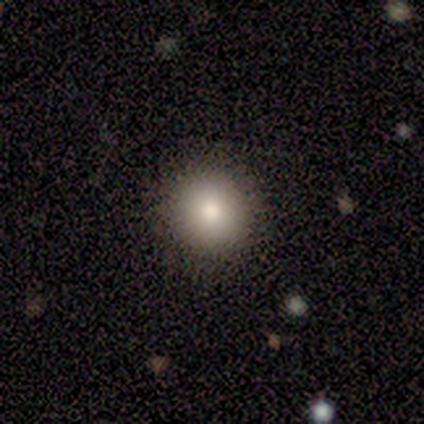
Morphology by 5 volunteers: Smooth or featured?
  - smooth: 60% *
  - featured or disk: 20%
  - star or artifact: 20%
How rounded?
  - round: 100% *
  - in between: 0%
  - cigar-shaped: 0%
Merging?
  - none: 100% *
  - minor disturbance: 0%
  - major disturbance: 0%
  - merger: 0%